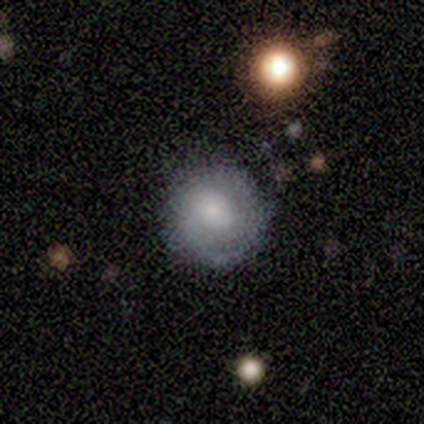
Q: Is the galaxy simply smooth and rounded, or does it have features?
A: smooth — 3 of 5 (60%).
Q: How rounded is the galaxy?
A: round — 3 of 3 (100%).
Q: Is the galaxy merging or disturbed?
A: none — 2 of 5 (40%, tied with minor disturbance).